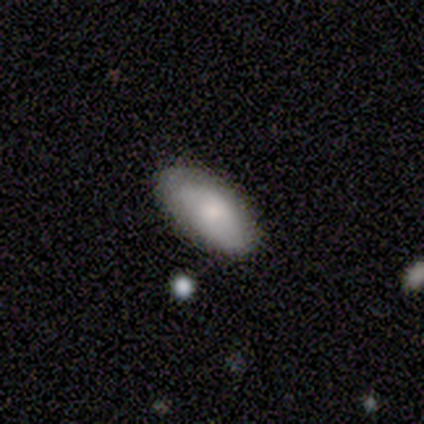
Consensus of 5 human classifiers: Smooth or featured? smooth (60%)
How rounded? in between (100%)
Merging? none (50%, tied with minor disturbance)